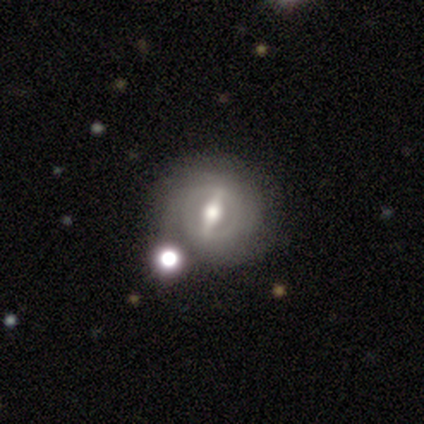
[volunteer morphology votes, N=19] This appears to be a featured or disk galaxy (68%) with a strong bar (92%), no spiral arms (54%) and a moderate central bulge (92%). Merging: none (78%).